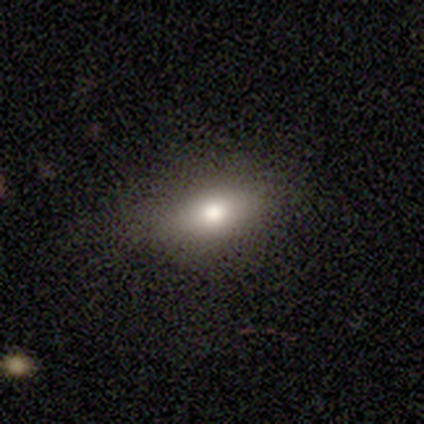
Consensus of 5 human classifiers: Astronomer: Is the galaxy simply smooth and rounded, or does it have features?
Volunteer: smooth — 80%.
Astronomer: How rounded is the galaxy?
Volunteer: in between — 75%.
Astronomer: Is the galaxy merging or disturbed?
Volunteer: none — 100%.